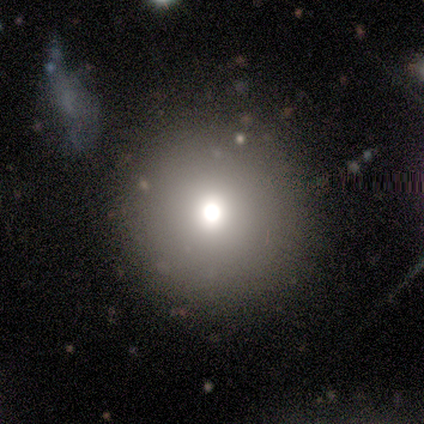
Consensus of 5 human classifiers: This is likely a star or artifact rather than a galaxy (60%).